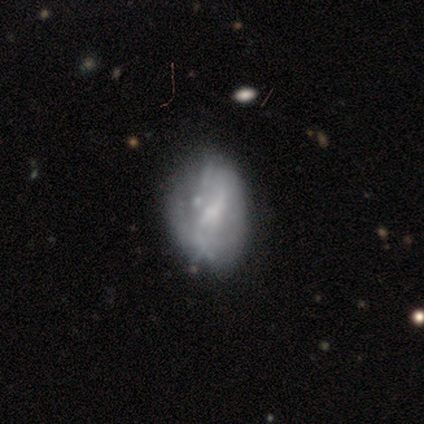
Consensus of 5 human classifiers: smooth_or_featured: smooth (p=0.40) [tied with: featured or disk p=0.40]
how_rounded: round (p=0.50) [tied with: in between p=0.50]
merging: none (p=0.75) [alt: minor disturbance p=0.25]